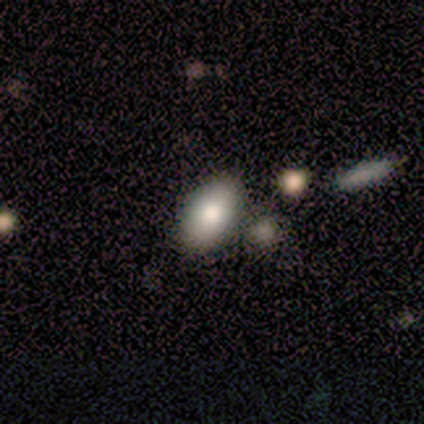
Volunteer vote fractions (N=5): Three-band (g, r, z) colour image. It shows a smooth galaxy with no disk features (80%) that is in between round and cigar-shaped (100%). Merging: none (60%).